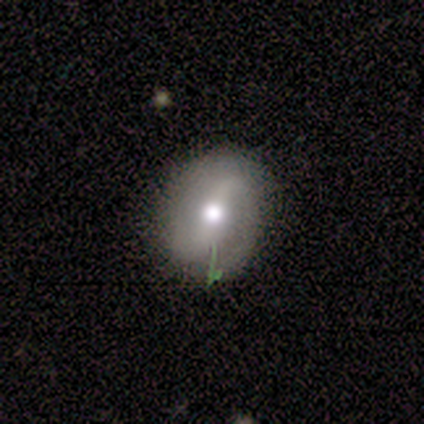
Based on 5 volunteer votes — This is likely a featured or disk galaxy (60%). It is likely not viewed edge-on (67%). Bar: clearly no (100%). Spiral arm pattern: clearly yes (100%). Spiral arm count: clearly 2 (100%). Spiral winding: possibly tight (50%, tied with loose). Central bulge: clearly moderate (100%). Merging: clearly none (80%).